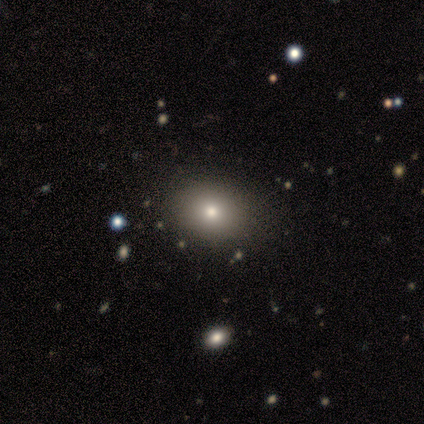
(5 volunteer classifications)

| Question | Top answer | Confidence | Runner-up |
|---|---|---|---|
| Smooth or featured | smooth | 100% | — |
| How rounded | in between | 80% | round (20%) |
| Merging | none | 80% | minor disturbance (20%) |